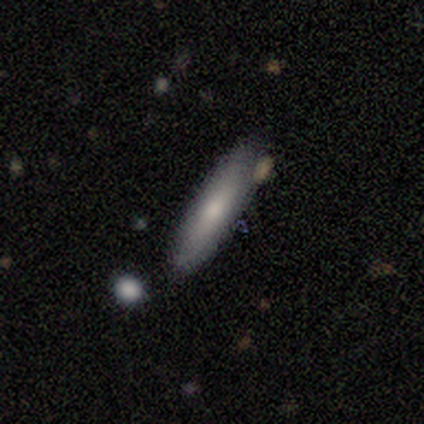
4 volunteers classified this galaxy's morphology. Smooth or featured: smooth — 75% (star or artifact — 25%)
How rounded: cigar-shaped — 100%
Merging: none — 100%